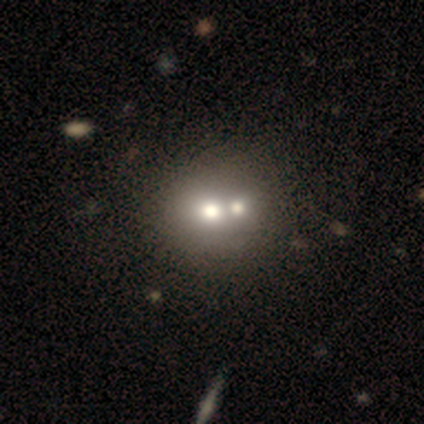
Smooth or featured?
  - star or artifact: 60% *
  - smooth: 40%
  - featured or disk: 0%